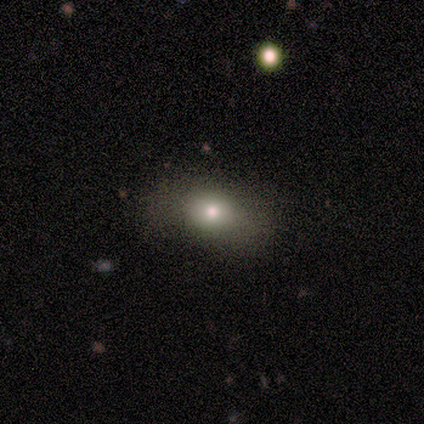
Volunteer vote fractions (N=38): A smooth galaxy with no disk features (66%) that is in between round and cigar-shaped (72%).

Vote fractions:
- Smooth or featured? smooth: 66% / star or artifact: 21% / featured or disk: 13%
- How rounded? in between: 72% / round: 20% / cigar-shaped: 8%
- Merging? none: 63% / minor disturbance: 33% / major disturbance: 3% / merger: 0%